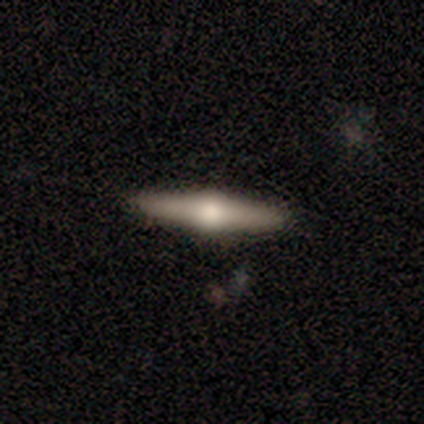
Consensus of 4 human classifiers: smooth_or_featured: featured or disk (p=0.75) [alt: smooth p=0.25]
disk_edge_on: yes (p=1.00)
edge_on_bulge: rounded (p=1.00)
merging: none (p=0.75) [alt: minor disturbance p=0.25]